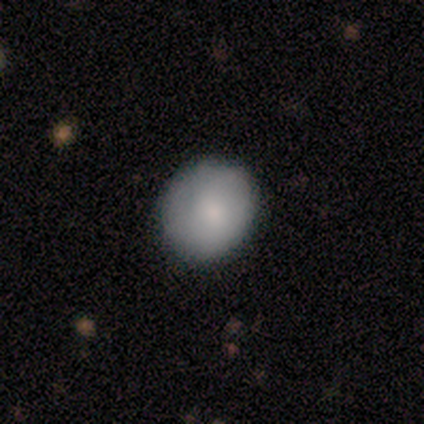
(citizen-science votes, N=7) Volunteers were most divided on "how rounded": round: 83%, in between: 17%, cigar-shaped: 0%. More confident: smooth or featured — smooth (86%); merging — none (86%).